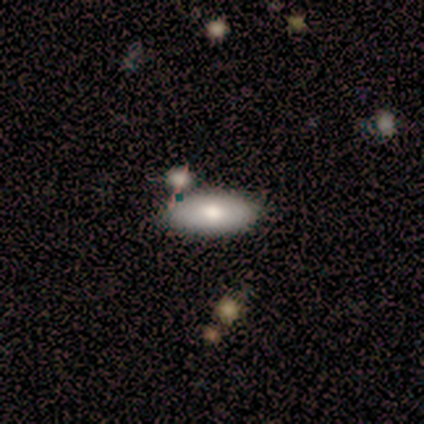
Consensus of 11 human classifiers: Smooth or featured?
  - smooth: 73% *
  - featured or disk: 18%
  - star or artifact: 9%
How rounded?
  - in between: 88% *
  - cigar-shaped: 12%
  - round: 0%
Merging?
  - none: 90% *
  - merger: 10%
  - minor disturbance: 0%
  - major disturbance: 0%